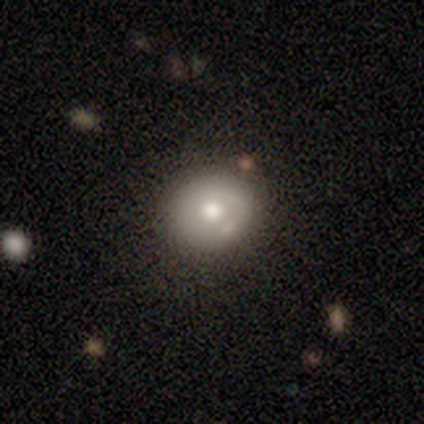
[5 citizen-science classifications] Q: Smooth or featured?
A: smooth (80%); runner-up: featured or disk (20%)
Q: How rounded?
A: round (75%); runner-up: in between (25%)
Q: Merging?
A: none (80%); runner-up: minor disturbance (20%)